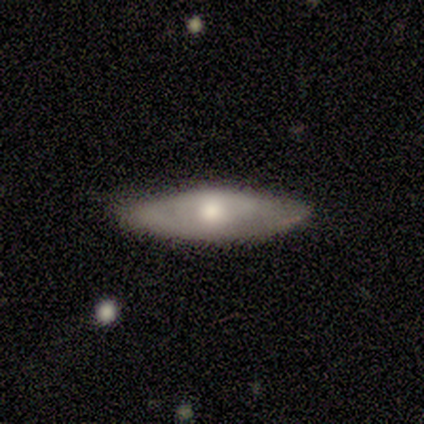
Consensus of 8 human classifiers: Q: Smooth or featured?
A: smooth (50%); tied with: featured or disk (50%)
Q: How rounded?
A: in between (50%); tied with: cigar-shaped (50%)
Q: Merging?
A: none (100%)